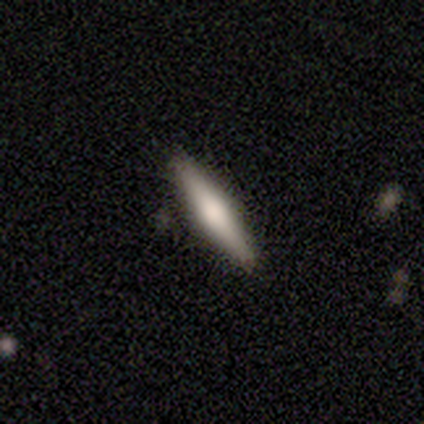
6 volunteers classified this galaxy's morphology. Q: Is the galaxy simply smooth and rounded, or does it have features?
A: smooth — 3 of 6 (50%, tied with featured or disk).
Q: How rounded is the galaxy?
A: cigar-shaped — 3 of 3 (100%).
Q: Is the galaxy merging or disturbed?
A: none — 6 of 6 (100%).